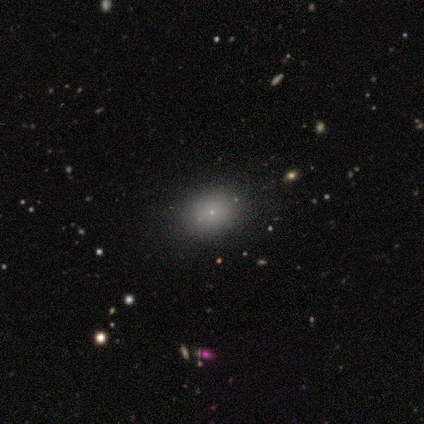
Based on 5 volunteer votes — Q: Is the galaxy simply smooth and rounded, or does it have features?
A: smooth — 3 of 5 (60%).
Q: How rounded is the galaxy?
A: round — 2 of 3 (67%).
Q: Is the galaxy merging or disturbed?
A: none — 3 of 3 (100%).